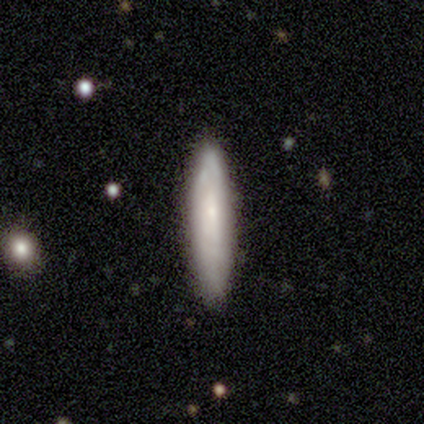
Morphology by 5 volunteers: smooth_or_featured: smooth (p=0.60) [alt: featured or disk p=0.40]
how_rounded: cigar-shaped (p=1.00)
merging: none (p=1.00)